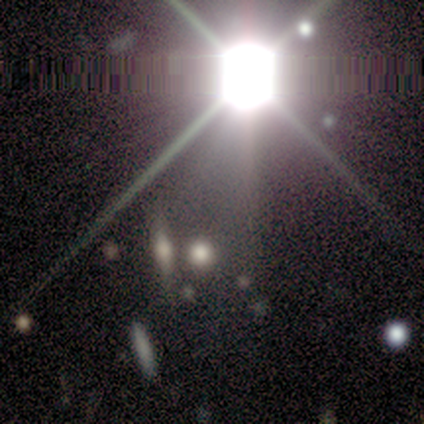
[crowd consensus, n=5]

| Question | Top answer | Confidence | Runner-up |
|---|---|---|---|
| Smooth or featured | star or artifact | 80% | smooth (20%) |